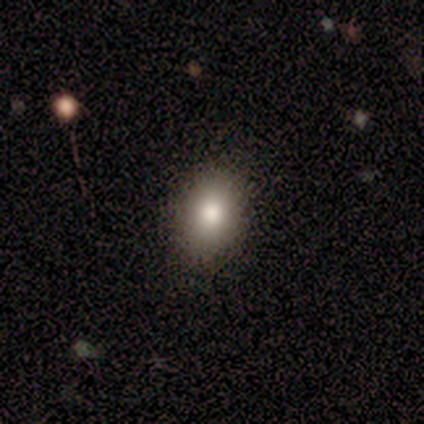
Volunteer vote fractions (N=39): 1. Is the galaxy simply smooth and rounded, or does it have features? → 87% smooth, 10% star or artifact, 3% featured or disk.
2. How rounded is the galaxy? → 79% in between, 21% round, 0% cigar-shaped.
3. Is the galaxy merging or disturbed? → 89% none, 6% minor disturbance, 6% major disturbance, 0% merger.